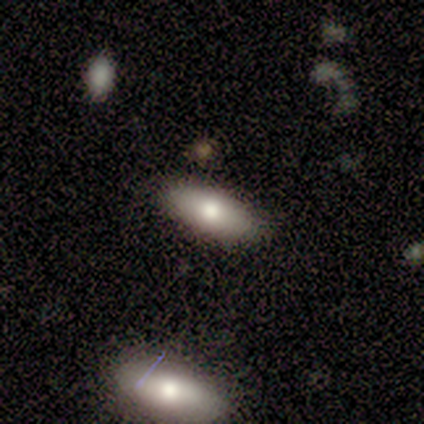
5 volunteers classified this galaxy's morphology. Volunteers were most divided on "smooth or featured": smooth: 80%, featured or disk: 20%, star or artifact: 0%. More confident: how rounded — in between (100%); merging — none (80%).